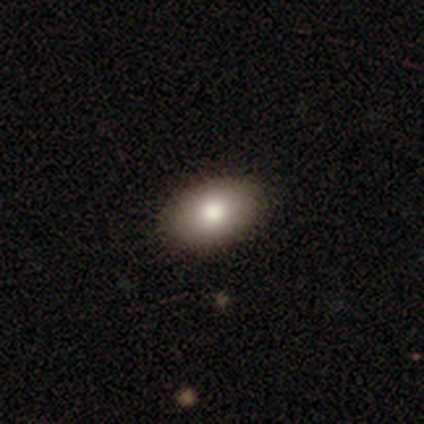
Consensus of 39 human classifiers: Q: Smooth or featured?
A: smooth (77%); runner-up: featured or disk (18%)
Q: How rounded?
A: in between (83%); runner-up: round (17%)
Q: Merging?
A: none (86%); runner-up: minor disturbance (14%)